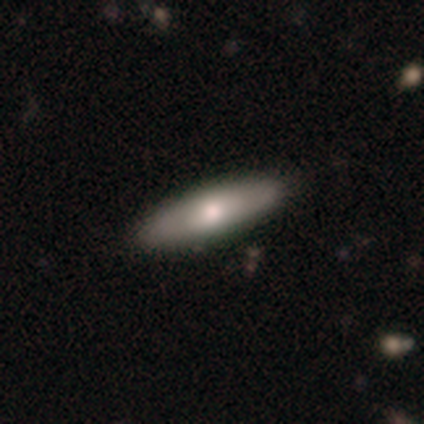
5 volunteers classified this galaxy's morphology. Volunteers were most divided on "smooth or featured": smooth: 60%, featured or disk: 40%, star or artifact: 0%. More confident: merging — none (80%); how rounded — cigar-shaped (67%).